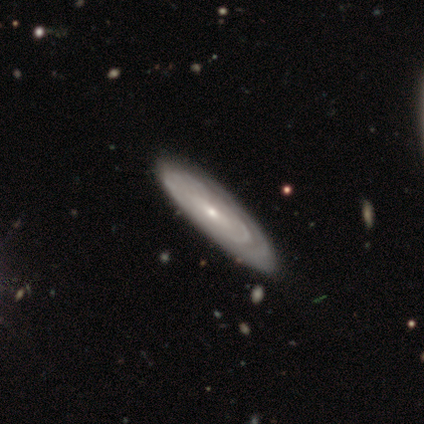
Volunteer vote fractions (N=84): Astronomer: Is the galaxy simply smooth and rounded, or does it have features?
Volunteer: featured or disk — 76%.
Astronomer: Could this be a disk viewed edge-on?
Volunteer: no — 83%.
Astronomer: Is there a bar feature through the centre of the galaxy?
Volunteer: no — 68%.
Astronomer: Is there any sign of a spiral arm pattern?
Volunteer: yes — 75%.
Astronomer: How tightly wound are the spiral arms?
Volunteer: tight — 70%.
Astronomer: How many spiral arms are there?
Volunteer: can't tell — 80%.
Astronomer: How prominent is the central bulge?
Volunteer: small — 68%.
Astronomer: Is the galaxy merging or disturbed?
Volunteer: none — 80%.